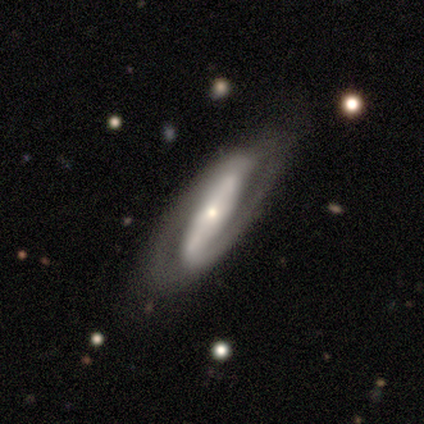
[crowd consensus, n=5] Morphology: type=featured or disk (80%); edge-on=no (100%); bar=strong (50%); spiral arms=yes (100%); winding=medium (100%); arm count=2 (75%); bulge=moderate (50%, tied with small); merging=none (100%).